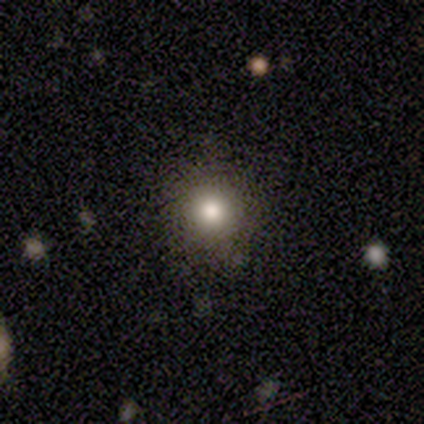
Smooth or featured?
  - smooth: 60% *
  - featured or disk: 20%
  - star or artifact: 20%
How rounded?
  - round: 100% *
  - in between: 0%
  - cigar-shaped: 0%
Merging?
  - none: 75% *
  - minor disturbance: 25%
  - major disturbance: 0%
  - merger: 0%